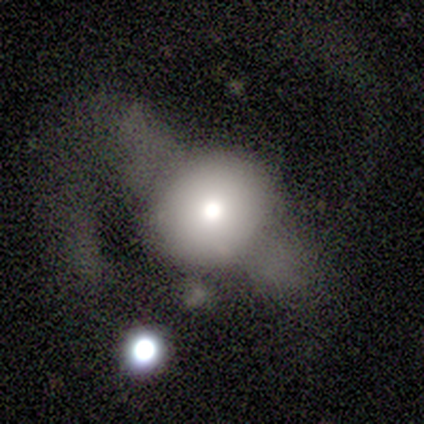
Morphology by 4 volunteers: A smooth galaxy with no disk features (75%) that is round (100%).

Vote fractions:
- Smooth or featured? smooth: 75% / featured or disk: 25% / star or artifact: 0%
- How rounded? round: 100% / in between: 0% / cigar-shaped: 0%
- Merging? none: 25% (tied) / minor disturbance: 25% (tied) / major disturbance: 25% (tied) / merger: 25% (tied)